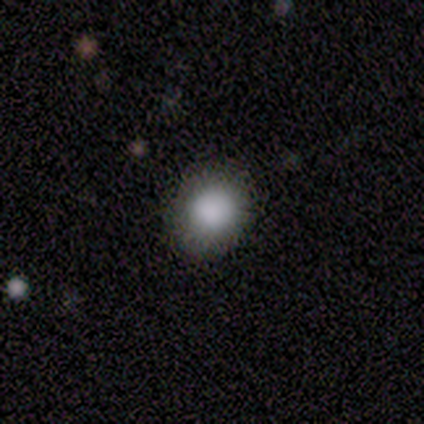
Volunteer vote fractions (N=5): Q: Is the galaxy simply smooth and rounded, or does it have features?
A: smooth — 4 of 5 (80%).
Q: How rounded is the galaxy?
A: round — 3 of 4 (75%).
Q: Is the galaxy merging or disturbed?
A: none — 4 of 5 (80%).